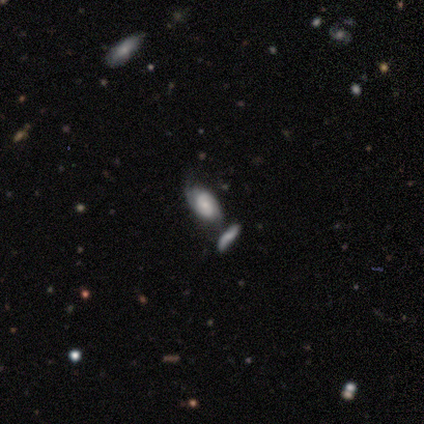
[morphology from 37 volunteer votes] Smooth or featured: featured or disk — 59% (smooth — 35%)
Edge-on disk: no — 86% (yes — 14%)
Bar: no — 63% (weak — 26%)
Spiral arms: yes — 100%
Spiral winding: medium — 53% (tight — 37%)
Spiral arm count: 2 — 68% (can't tell — 21%)
Bulge size: small — 53% (moderate — 21%)
Merging: none — 40% (merger — 34%)